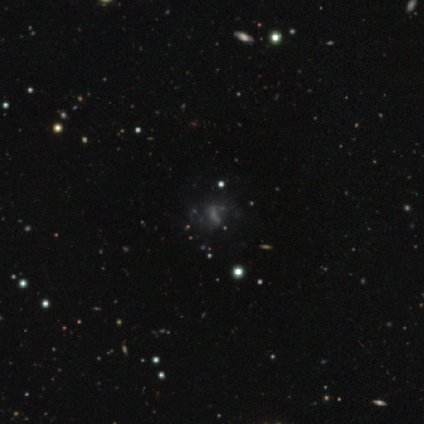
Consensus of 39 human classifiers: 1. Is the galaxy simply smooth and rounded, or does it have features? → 56% featured or disk, 31% star or artifact, 13% smooth.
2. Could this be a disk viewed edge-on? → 95% no, 5% yes.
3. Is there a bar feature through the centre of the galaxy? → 52% no, 29% strong, 19% weak.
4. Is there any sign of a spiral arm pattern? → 67% yes, 33% no.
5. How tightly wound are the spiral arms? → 79% loose, 21% medium, 0% tight.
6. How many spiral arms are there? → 71% 2, 14% 1, 14% can't tell, 0% 3, 0% 4, 0% more than 4.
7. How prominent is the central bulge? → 48% none, 43% small, 5% large, 5% moderate, 0% dominant.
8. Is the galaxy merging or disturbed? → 26% none, 19% major disturbance, 15% minor disturbance, 7% merger.